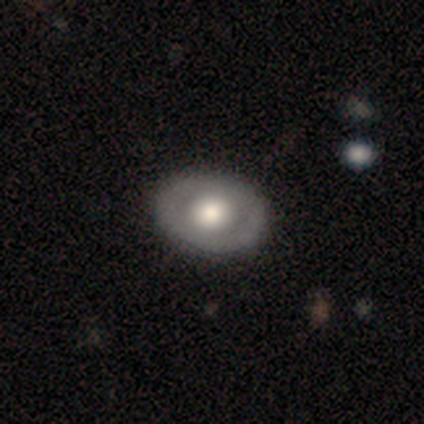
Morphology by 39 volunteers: A featured or disk galaxy (54%) with no bar (89%), no spiral arms (94%) and a large central bulge (50%). Merging: none (74%).